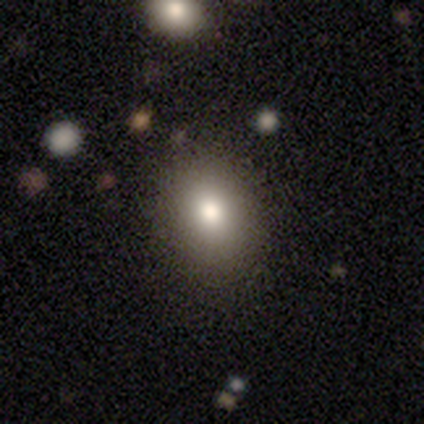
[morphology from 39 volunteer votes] Overall: smooth (72%). How rounded: in between (57%; round 43%). Merging: none (80%).